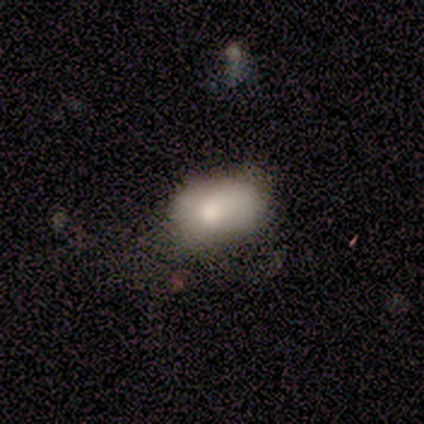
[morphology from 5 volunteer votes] This appears to be a smooth galaxy with no disk features (100%) that is in between round and cigar-shaped (100%). Merging: minor disturbance (60%).